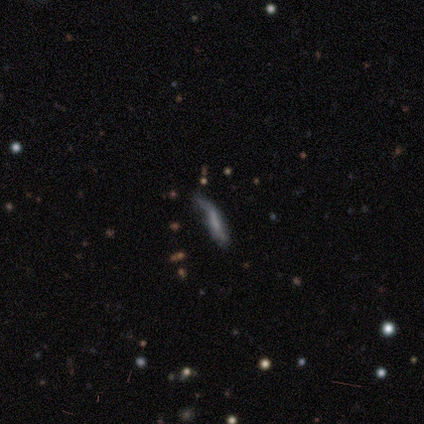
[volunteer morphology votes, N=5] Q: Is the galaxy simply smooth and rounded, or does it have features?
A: featured or disk — 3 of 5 (60%).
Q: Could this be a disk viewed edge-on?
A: no — 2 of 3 (67%).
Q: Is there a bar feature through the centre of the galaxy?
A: strong — 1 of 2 (50%, tied with no).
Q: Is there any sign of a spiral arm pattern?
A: yes — 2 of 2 (100%).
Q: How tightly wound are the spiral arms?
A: loose — 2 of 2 (100%).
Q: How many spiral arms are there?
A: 2 — 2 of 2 (100%).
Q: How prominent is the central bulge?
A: none — 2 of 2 (100%).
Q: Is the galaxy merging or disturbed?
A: none — 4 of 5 (80%).